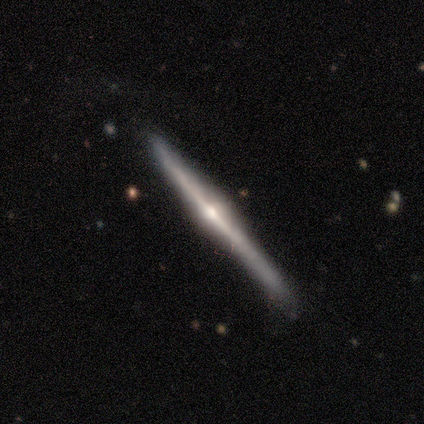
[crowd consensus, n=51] Smooth or featured? 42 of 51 (82%) said featured or disk. Edge-on disk? 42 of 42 (100%) said yes. Edge-on bulge? 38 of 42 (90%) said rounded. Merging? 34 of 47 (72%) said none.